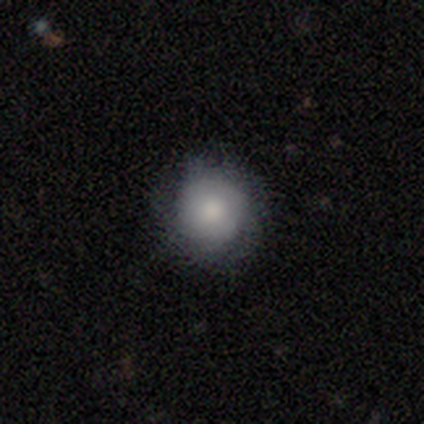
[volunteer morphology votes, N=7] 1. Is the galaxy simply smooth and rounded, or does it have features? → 57% smooth, 43% featured or disk, 0% star or artifact.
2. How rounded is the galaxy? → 100% round, 0% in between, 0% cigar-shaped.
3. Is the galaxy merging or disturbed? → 57% none, 29% minor disturbance, 14% major disturbance, 0% merger.